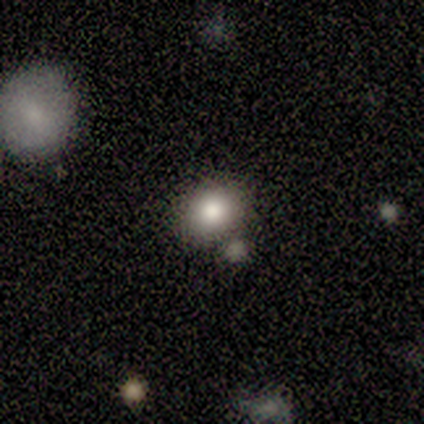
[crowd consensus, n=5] smooth_or_featured: smooth (p=0.80) [alt: star or artifact p=0.20]
how_rounded: in between (p=0.75) [alt: round p=0.25]
merging: none (p=1.00)